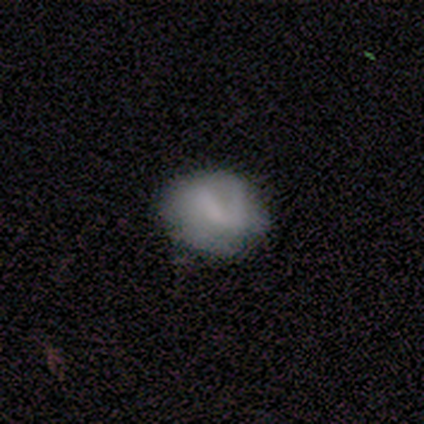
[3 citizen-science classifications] Smooth or featured? smooth (67%)
How rounded? in between (100%)
Merging? none (33%, tied with minor disturbance and merger)